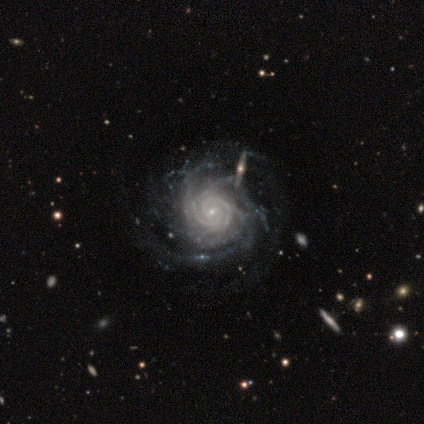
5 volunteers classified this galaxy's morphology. A featured or disk galaxy (100%) with no bar (80%), tight (80%) spiral arms (100%) and a small central bulge (80%). Merging: none (80%).